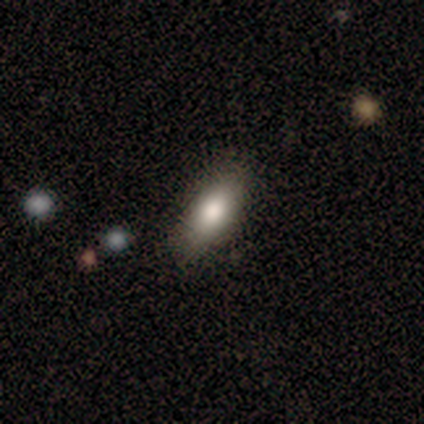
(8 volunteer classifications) Overall: smooth (75%). How rounded: in between (67%; cigar-shaped 33%). Merging: none (100%).